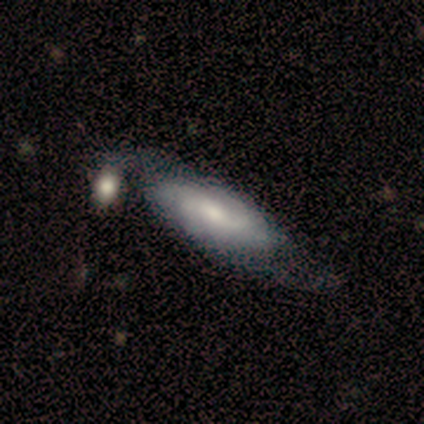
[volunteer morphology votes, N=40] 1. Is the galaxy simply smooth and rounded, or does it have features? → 57% featured or disk, 38% smooth, 5% star or artifact.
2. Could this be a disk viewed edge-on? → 83% no, 17% yes.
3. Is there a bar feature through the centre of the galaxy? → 53% no, 37% weak, 11% strong.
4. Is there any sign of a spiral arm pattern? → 84% yes, 16% no.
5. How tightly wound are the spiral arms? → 38% medium, 31% tight, 31% loose.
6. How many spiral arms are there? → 50% 2, 31% can't tell, 6% 1, 6% 3, 6% 4, 0% more than 4.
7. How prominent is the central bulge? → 58% moderate, 26% small, 11% large, 5% none, 0% dominant.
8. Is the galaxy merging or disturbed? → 42% none, 16% merger, 11% major disturbance, 8% minor disturbance.